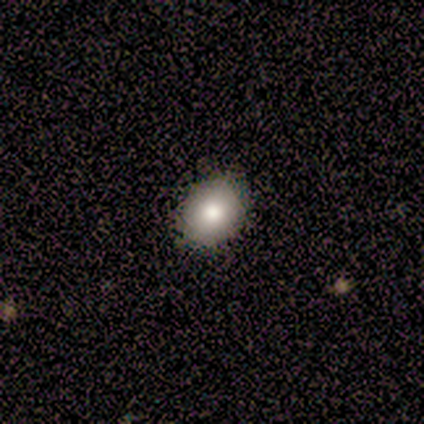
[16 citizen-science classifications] This is clearly a smooth galaxy (88%). How rounded: likely in between (71%). Merging: clearly none (94%).